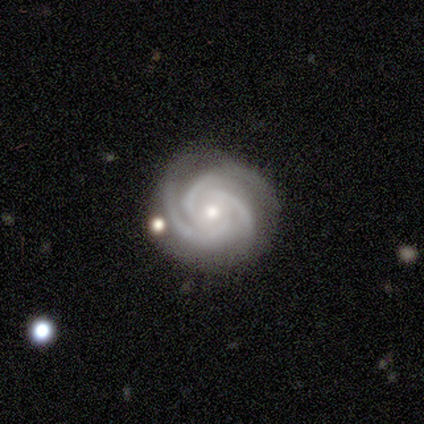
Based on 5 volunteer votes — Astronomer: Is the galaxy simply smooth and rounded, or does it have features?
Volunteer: featured or disk — 100%.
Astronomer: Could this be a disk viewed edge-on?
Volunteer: no — 100%.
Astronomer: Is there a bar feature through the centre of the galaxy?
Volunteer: weak — 40%, tied with no at 40%.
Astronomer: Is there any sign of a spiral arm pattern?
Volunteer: yes — 100%.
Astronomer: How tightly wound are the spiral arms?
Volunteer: tight — 80%.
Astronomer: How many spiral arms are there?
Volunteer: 3 — 100%.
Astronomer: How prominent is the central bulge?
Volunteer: moderate — 60% (runner-up: small, 40%).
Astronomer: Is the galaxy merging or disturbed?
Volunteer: none — 80%.